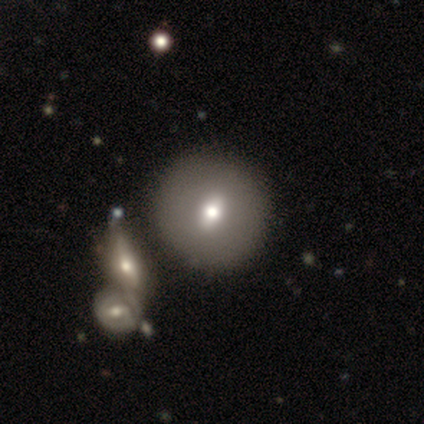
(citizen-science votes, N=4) Smooth or featured? 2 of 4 (50%, tied with featured or disk) said smooth. How rounded? 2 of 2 (100%) said round. Merging? 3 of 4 (75%) said none.